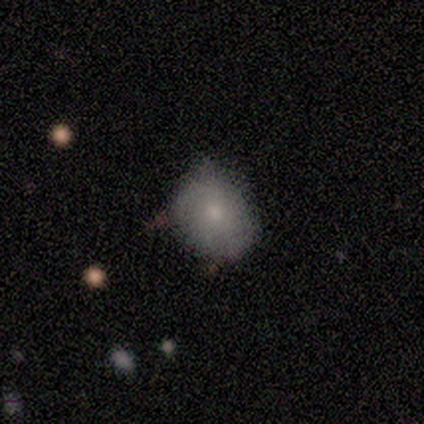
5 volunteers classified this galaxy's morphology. This appears to be a smooth galaxy with no disk features (60%) that is in between round and cigar-shaped (67%). Merging: none (60%).